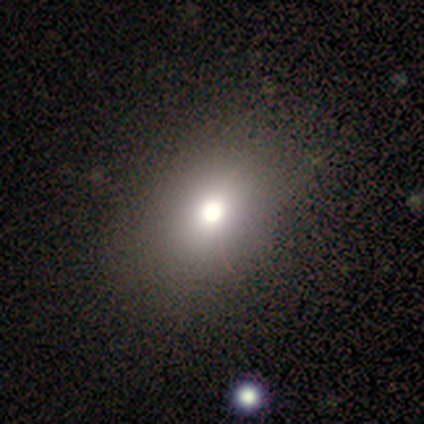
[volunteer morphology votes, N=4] A smooth galaxy with no disk features (100%) that is in between round and cigar-shaped (75%). Merging: none (100%).